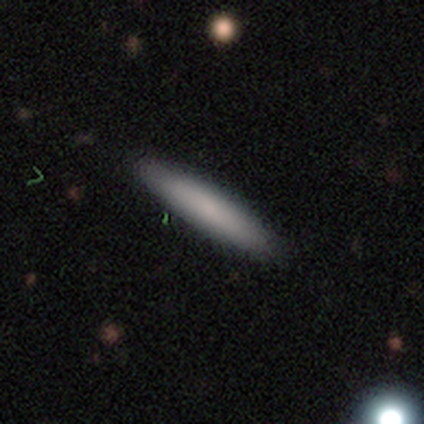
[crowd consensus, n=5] smooth_or_featured: smooth (p=0.80) [alt: star or artifact p=0.20]
how_rounded: cigar-shaped (p=1.00)
merging: none (p=1.00)